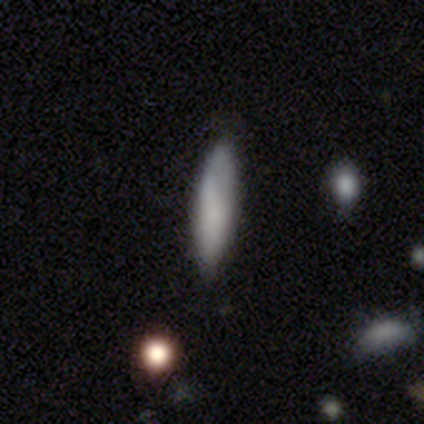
This is likely a smooth galaxy (78%). How rounded: clearly cigar-shaped (90%). Merging: clearly none (88%).